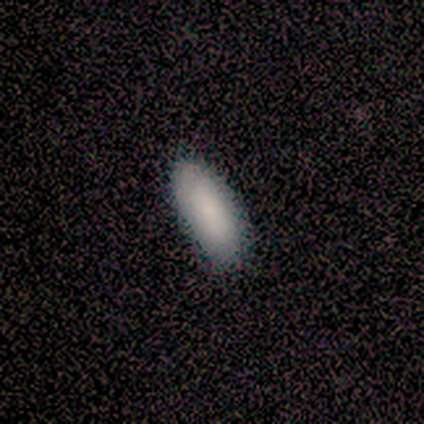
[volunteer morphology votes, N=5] Consensus on every question: smooth or featured — smooth (100%); how rounded — in between (100%); merging — none (100%).